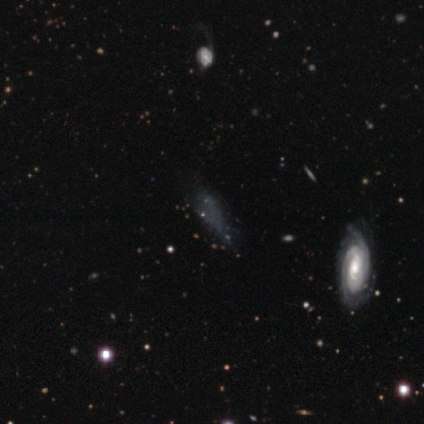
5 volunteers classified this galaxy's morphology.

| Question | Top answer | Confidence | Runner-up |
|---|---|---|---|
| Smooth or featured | smooth | 40% | tied: featured or disk (40%) |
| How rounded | in between | 50% | tied: cigar-shaped (50%) |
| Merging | minor disturbance | 50% | tied: major disturbance (50%) |